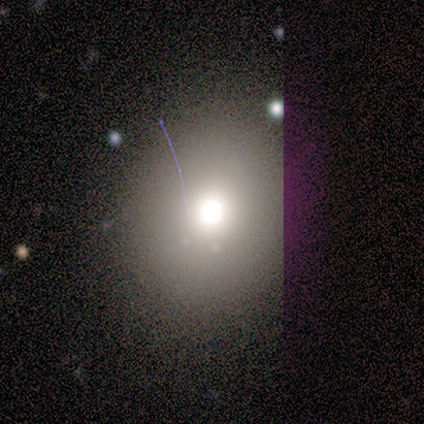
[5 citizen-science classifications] Smooth or featured? smooth (80%)
How rounded? round (50%, tied with in between)
Merging? none (75%)